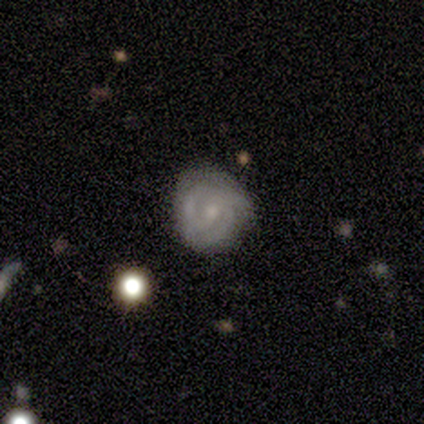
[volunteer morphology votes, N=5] Smooth or featured: featured or disk — 60% (smooth — 20%)
Edge-on disk: no — 100%
Bar: no — 67% (weak — 33%)
Spiral arms: yes — 100%
Spiral winding: tight — 100%
Spiral arm count: 3 — 67% (2 — 33%)
Bulge size: small — 67% (moderate — 33%)
Merging: none — 100%